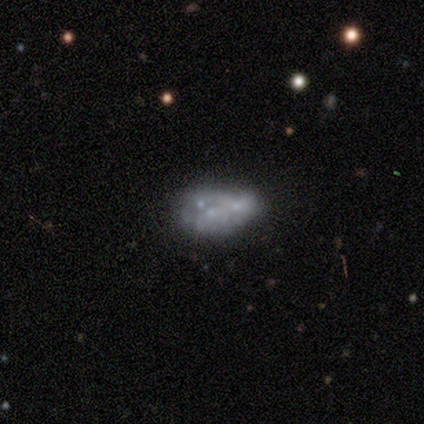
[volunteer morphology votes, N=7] type=featured or disk (57%); edge-on=no (100%); bar=no (100%); spiral arms=no (100%); bulge=none (75%); merging=none (40%, tied with merger).